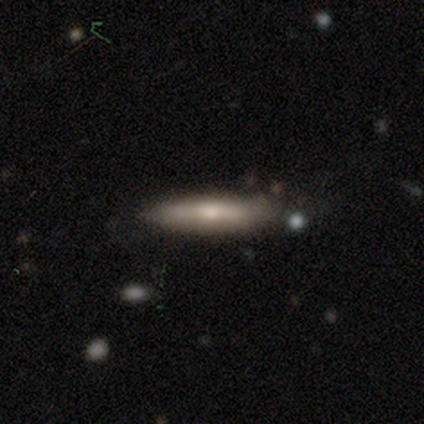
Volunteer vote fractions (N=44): A smooth galaxy with no disk features (59%) that is cigar-shaped (88%).

Vote fractions:
- Smooth or featured? smooth: 59% / featured or disk: 36% / star or artifact: 5%
- How rounded? cigar-shaped: 88% / in between: 12% / round: 0%
- Merging? none: 76% / minor disturbance: 17% / major disturbance: 5% / merger: 2%